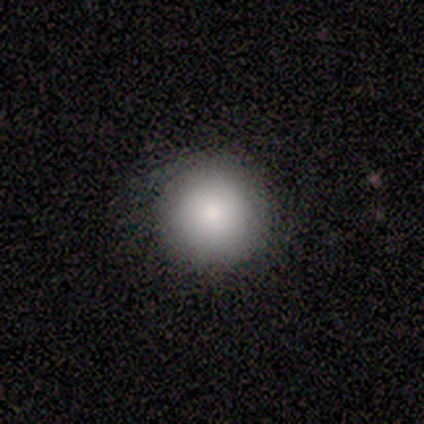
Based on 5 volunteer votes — smooth 80%, star or artifact 20%, featured or disk 0%. Down the decision tree: how rounded — round (100%); merging — none (75%).